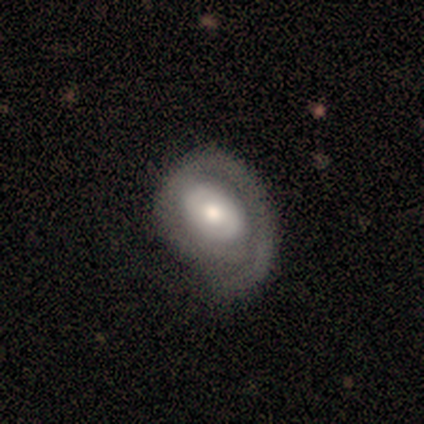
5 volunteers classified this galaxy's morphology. Overall: featured or disk (80%). Edge-on disk: no (100%). Bar: no (75%). Spiral arms: yes (75%). Spiral arm count: 1 (67%; 2 33%). Spiral winding: tight (100%). Bulge size: large (50%, tied with moderate). Merging: none (100%).